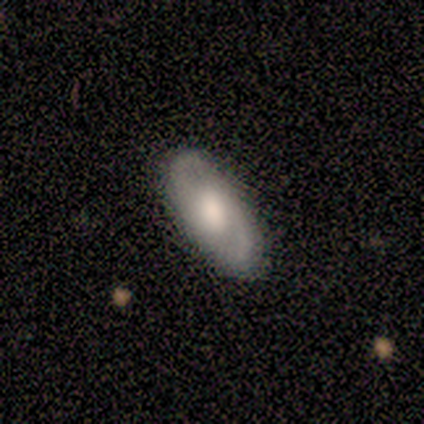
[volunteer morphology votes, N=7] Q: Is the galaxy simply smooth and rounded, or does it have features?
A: featured or disk — 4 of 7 (57%).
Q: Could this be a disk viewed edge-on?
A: no — 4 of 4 (100%).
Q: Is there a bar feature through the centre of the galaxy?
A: weak — 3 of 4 (75%).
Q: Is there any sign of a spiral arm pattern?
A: yes — 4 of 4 (100%).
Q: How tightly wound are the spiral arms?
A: medium — 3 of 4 (75%).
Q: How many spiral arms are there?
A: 2 — 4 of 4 (100%).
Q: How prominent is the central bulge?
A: large — 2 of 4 (50%).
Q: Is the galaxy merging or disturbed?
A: none — 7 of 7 (100%).